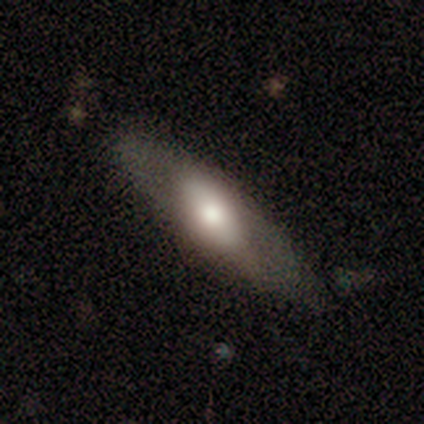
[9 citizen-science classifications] Smooth or featured: featured or disk — 89% (smooth — 11%)
Edge-on disk: no — 62% (yes — 38%)
Bar: weak — 60% (strong — 40%)
Spiral arms: no — 80% (yes — 20%)
Bulge size: large — 60% (moderate — 40%)
Merging: none — 78% (minor disturbance — 11%)